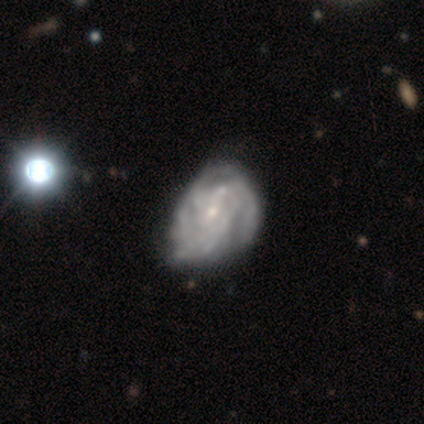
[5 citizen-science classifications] Q: Smooth or featured?
A: featured or disk (100%)
Q: Edge-on disk?
A: no (100%)
Q: Bar?
A: weak (40%); tied with: no (40%)
Q: Spiral arms?
A: yes (100%)
Q: Spiral winding?
A: tight (80%); runner-up: medium (20%)
Q: Spiral arm count?
A: 4 (40%); tied with: more than 4 (40%)
Q: Bulge size?
A: small (80%); runner-up: none (20%)
Q: Merging?
A: none (80%); runner-up: minor disturbance (20%)